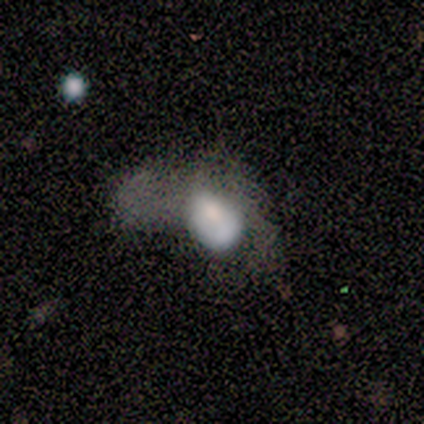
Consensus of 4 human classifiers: This is likely a smooth galaxy (75%). How rounded: likely in between (67%). Merging: clearly major disturbance (100%).